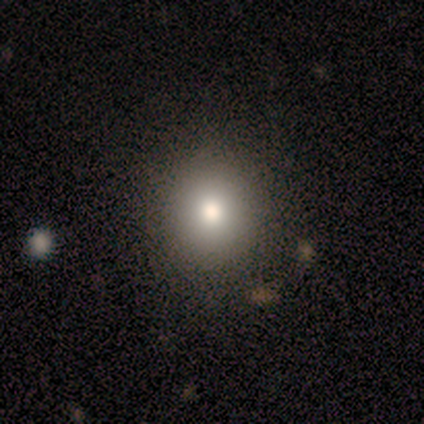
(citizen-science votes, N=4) Smooth or featured?
  - smooth: 50% *
  - featured or disk: 25%
  - star or artifact: 25%
How rounded?
  - round: 100% *
  - in between: 0%
  - cigar-shaped: 0%
Merging?
  - none: 67% *
  - minor disturbance: 33%
  - major disturbance: 0%
  - merger: 0%